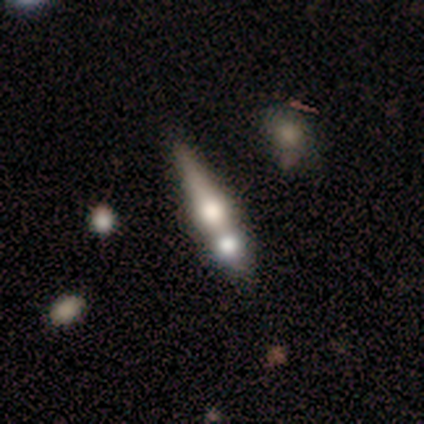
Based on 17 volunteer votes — Smooth or featured? featured or disk (53%)
Edge-on disk? yes (89%)
Edge-on bulge? rounded (88%)
Merging? merger (56%)